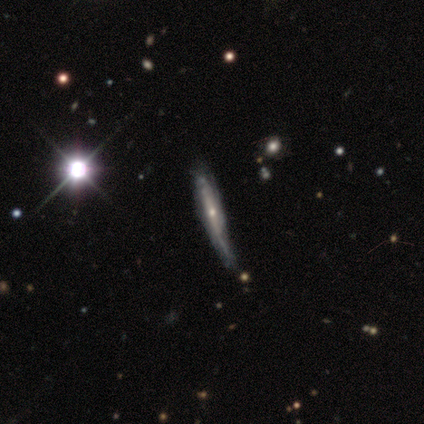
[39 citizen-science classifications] A featured or disk galaxy (85%) viewed edge-on (79%) with a rounded central bulge (65%). Merging: none (55%).